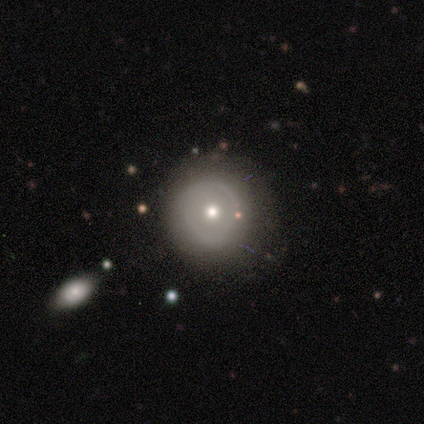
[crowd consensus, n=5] Smooth or featured? smooth (60%)
How rounded? round (100%)
Merging? none (50%)